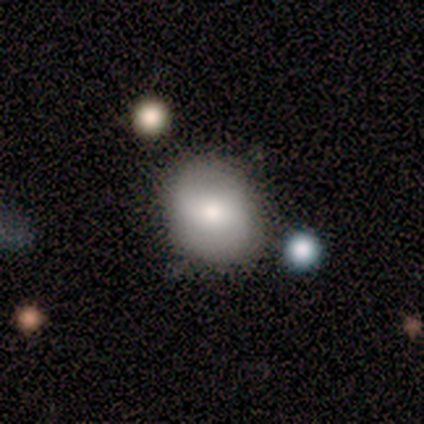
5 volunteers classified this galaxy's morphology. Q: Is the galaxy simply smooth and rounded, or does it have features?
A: smooth — 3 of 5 (60%).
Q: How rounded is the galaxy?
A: in between — 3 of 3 (100%).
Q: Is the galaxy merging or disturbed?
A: none — 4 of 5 (80%).